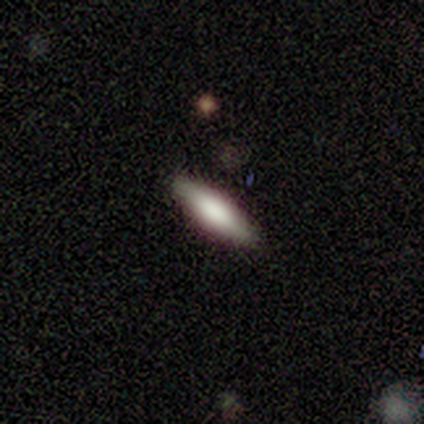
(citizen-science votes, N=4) This appears to be a smooth galaxy with no disk features (50%, tied with featured or disk) that is cigar-shaped (100%). Merging: none (100%).